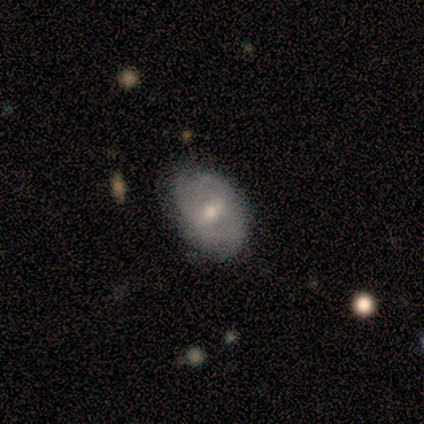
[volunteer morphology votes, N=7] Volunteers were most divided on "spiral winding" (2-way tie): tight: 50%, medium: 50%, loose: 0%; "spiral arm count" (2-way tie): 2: 50%, 4: 50%, 1: 0%, 3: 0%, more than 4: 0%, can't tell: 0%. More confident: edge-on disk — no (100%); bar — weak (80%); spiral arms — yes (80%); bulge size — small (80%); smooth or featured — featured or disk (71%); merging — none (57%).